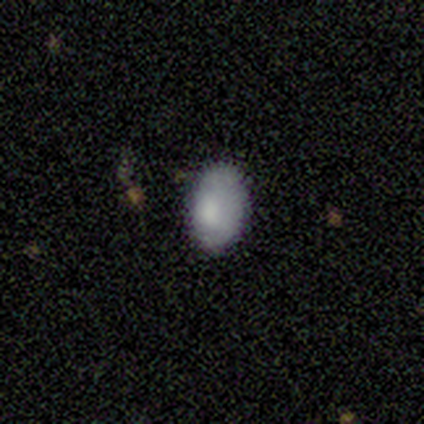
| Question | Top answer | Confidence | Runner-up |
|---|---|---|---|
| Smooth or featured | smooth | 100% | — |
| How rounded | in between | 80% | round (20%) |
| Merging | none | 100% | — |